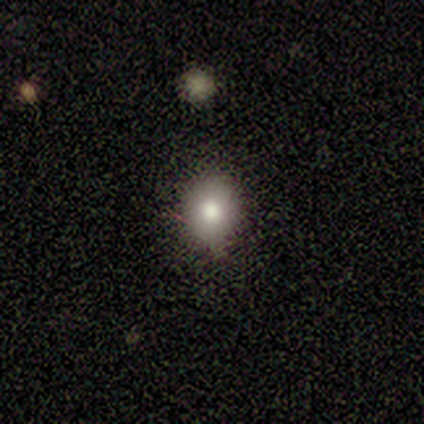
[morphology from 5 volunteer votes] Q: Smooth or featured?
A: smooth (60%); runner-up: star or artifact (40%)
Q: How rounded?
A: round (100%)
Q: Merging?
A: none (100%)